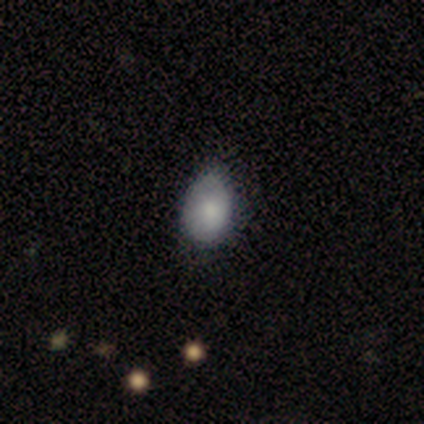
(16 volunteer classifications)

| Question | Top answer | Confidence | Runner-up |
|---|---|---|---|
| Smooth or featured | smooth | 88% | featured or disk (12%) |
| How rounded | in between | 86% | round (14%) |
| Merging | none | 56% | minor disturbance (38%) |